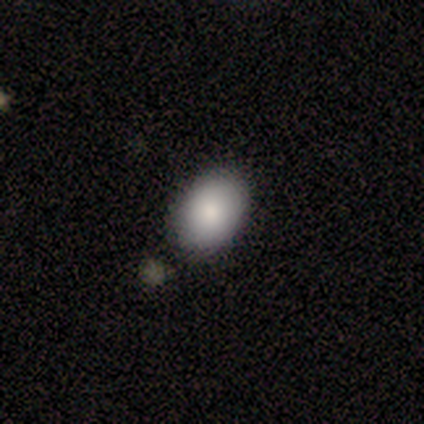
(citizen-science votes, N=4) Morphology: type=smooth (50%, tied with featured or disk); roundness=in between (100%); merging=none (100%).